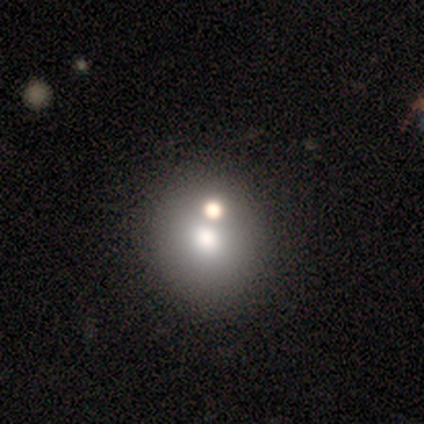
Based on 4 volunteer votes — Morphology: type=smooth (75%); roundness=round (100%); merging=minor disturbance (67%).